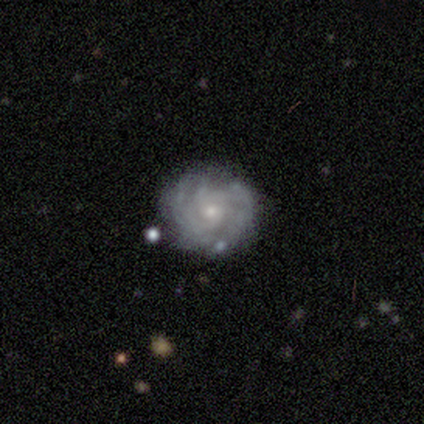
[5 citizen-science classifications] Smooth or featured? featured or disk (80%)
Edge-on disk? no (100%)
Bar? weak (50%, tied with no)
Spiral arms? yes (100%)
Spiral winding? tight (100%)
Spiral arm count? can't tell (50%)
Bulge size? small (75%)
Merging? none (80%)